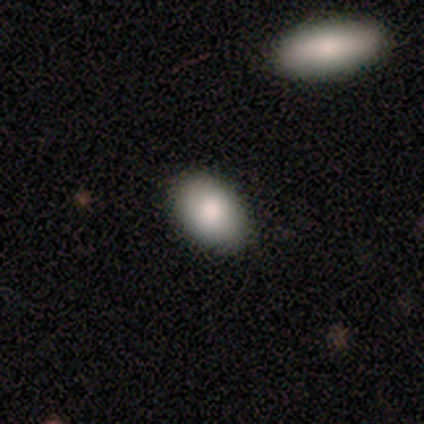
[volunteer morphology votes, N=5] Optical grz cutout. It shows a smooth galaxy with no disk features (100%) that is in between round and cigar-shaped (60%). Merging: none (80%).